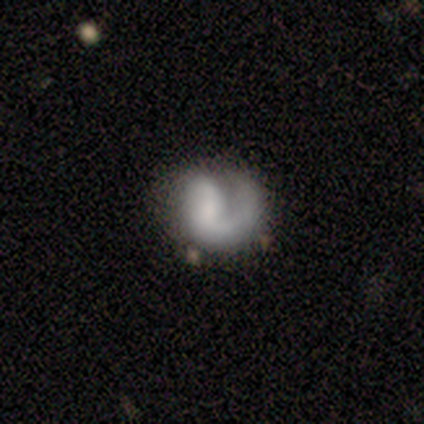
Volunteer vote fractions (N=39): Smooth or featured? 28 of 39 (72%) said featured or disk. Edge-on disk? 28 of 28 (100%) said no. Bar? 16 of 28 (57%) said no. Spiral arms? 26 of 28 (93%) said yes. Spiral winding? 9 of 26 (35%, tied with loose) said tight. Spiral arm count? 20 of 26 (77%) said 1. Bulge size? 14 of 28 (50%) said small. Merging? 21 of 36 (58%) said none.